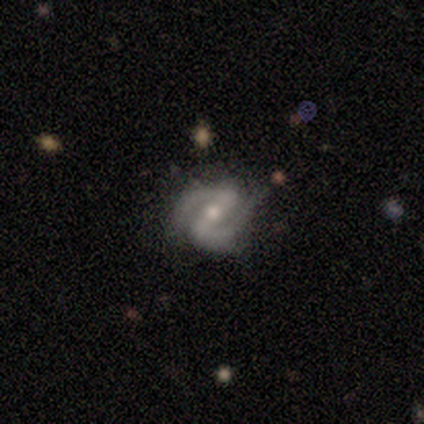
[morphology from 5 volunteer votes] type=featured or disk (80%); edge-on=no (75%); bar=no (67%); spiral arms=yes (100%); winding=medium (67%); arm count=2 (100%); bulge=moderate (67%); merging=none (40%, tied with minor disturbance).